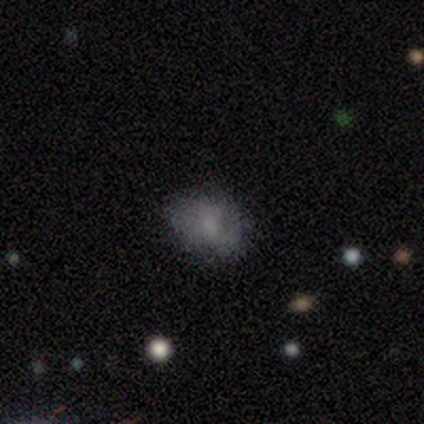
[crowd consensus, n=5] A smooth galaxy with no disk features (40%, tied with featured or disk) that is round (50%, tied with in between). Merging: none (100%).